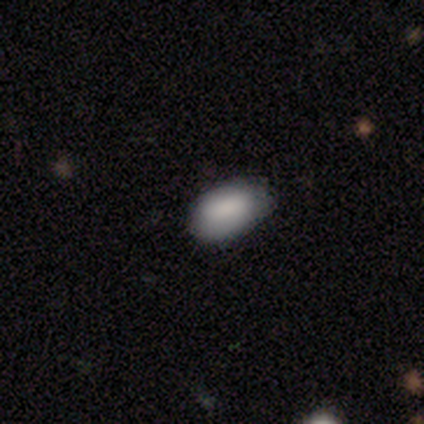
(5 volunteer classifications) Smooth or featured? smooth (100%)
How rounded? in between (100%)
Merging? none (60%)